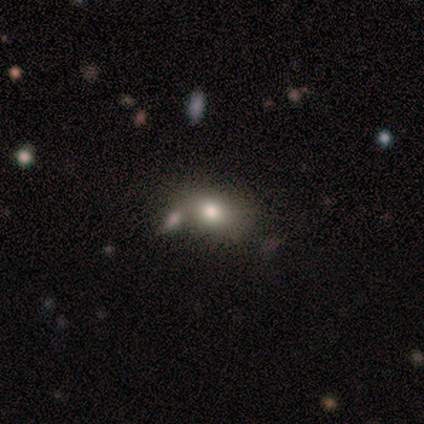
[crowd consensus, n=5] Overall: smooth (60%; featured or disk 20%). How rounded: in between (67%; round 33%). Merging: none (50%; minor disturbance 25%).